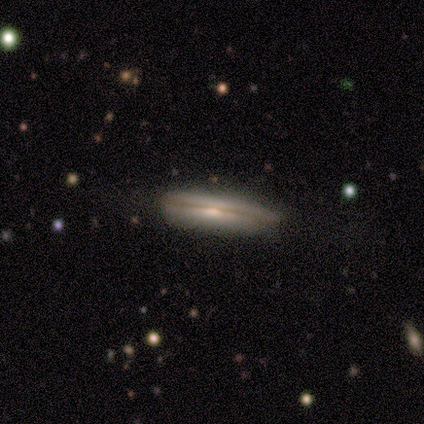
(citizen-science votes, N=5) Volunteers were most divided on "edge-on bulge" (3-way tie): boxy: 33%, none: 33%, rounded: 33%. More confident: smooth or featured — featured or disk (80%); merging — none (80%); edge-on disk — yes (75%).